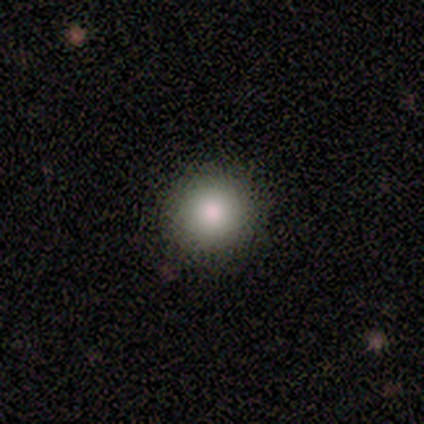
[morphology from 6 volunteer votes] Overall: smooth (83%). How rounded: round (100%). Merging: none (100%).